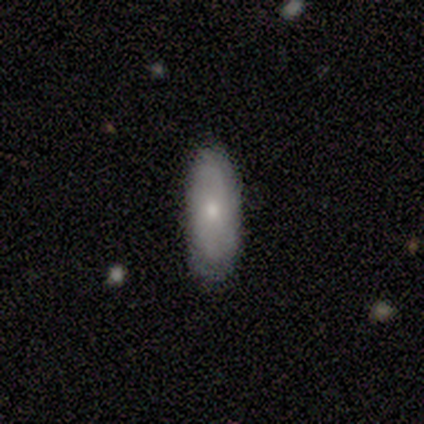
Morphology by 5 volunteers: A smooth galaxy with no disk features (80%) that is in between round and cigar-shaped (100%). Merging: none (80%).